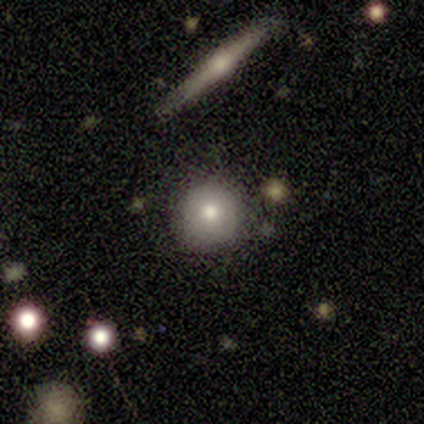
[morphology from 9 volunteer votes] smooth-or-featured: smooth: 44% | featured or disk: 33% | star or artifact: 22%
  how-rounded: round: 75% | in between: 25% | cigar-shaped: 0%
  merging: none: 86% | minor disturbance: 14% | major disturbance: 0% | merger: 0%